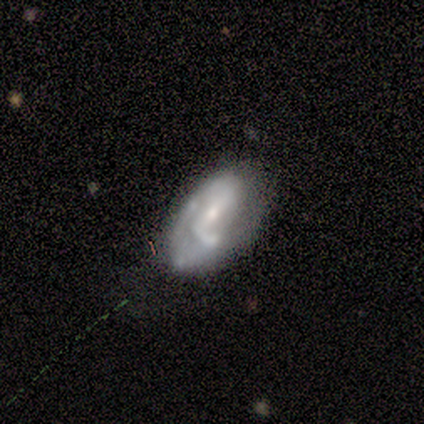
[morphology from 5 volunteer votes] Overall: featured or disk (60%; smooth 20%). Edge-on disk: no (100%). Bar: weak (100%). Spiral arms: no (67%; yes 33%). Bulge size: moderate (100%). Merging: none (50%, tied with major disturbance).